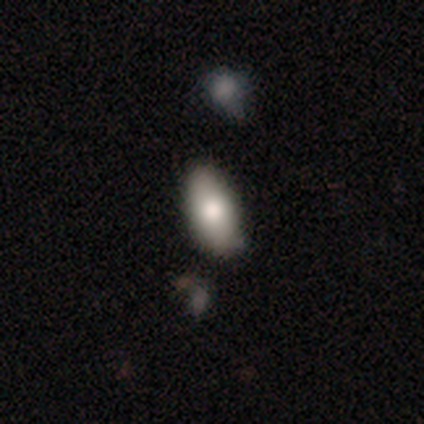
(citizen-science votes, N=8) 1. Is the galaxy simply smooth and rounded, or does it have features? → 88% smooth, 12% featured or disk, 0% star or artifact.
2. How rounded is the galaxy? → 100% in between, 0% round, 0% cigar-shaped.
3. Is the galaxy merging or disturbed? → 62% none, 25% minor disturbance, 12% merger, 0% major disturbance.